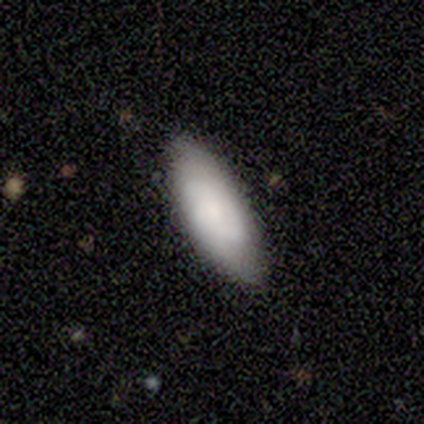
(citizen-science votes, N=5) Smooth or featured: smooth — 100%
How rounded: in between — 100%
Merging: none — 80% (minor disturbance — 20%)